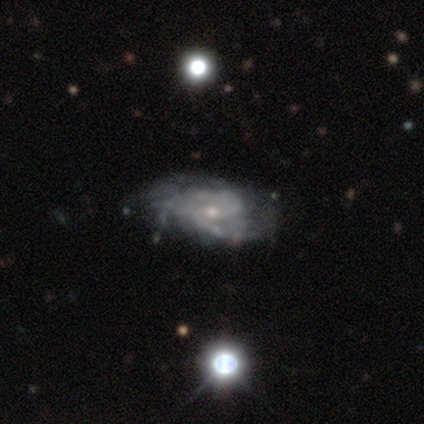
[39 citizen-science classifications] Volunteers were most divided on "bar": no: 50%, weak: 44%, strong: 6%. Remaining: edge-on disk — no (97%); spiral arms — yes (94%); smooth or featured — featured or disk (90%); bulge size — small (62%); spiral winding — medium (50%); spiral arm count — 2 (47%); merging — none (36%).